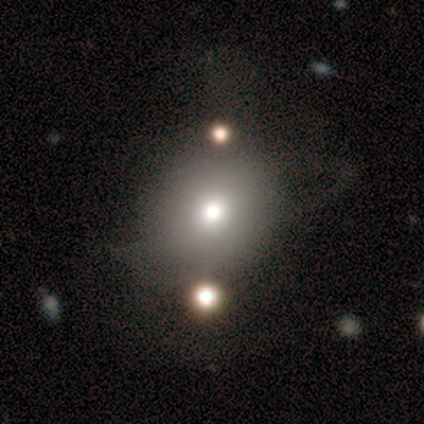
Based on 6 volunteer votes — This appears to be a smooth galaxy with no disk features (83%) that is round (80%). Merging: none (60%).